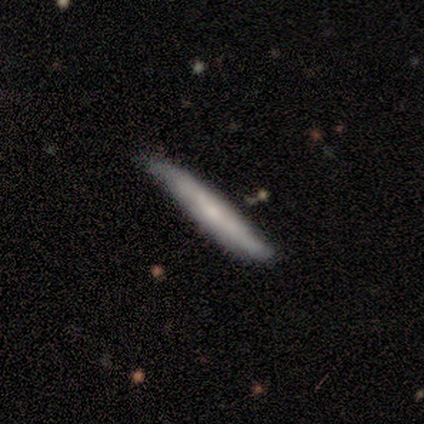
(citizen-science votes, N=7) smooth-or-featured: featured or disk: 57% | smooth: 43% | star or artifact: 0%
  disk-edge-on: yes: 75% | no: 25%
    edge-on-bulge: none: 67% | rounded: 33% | boxy: 0%
  merging: none: 57% | minor disturbance: 43% | major disturbance: 0% | merger: 0%